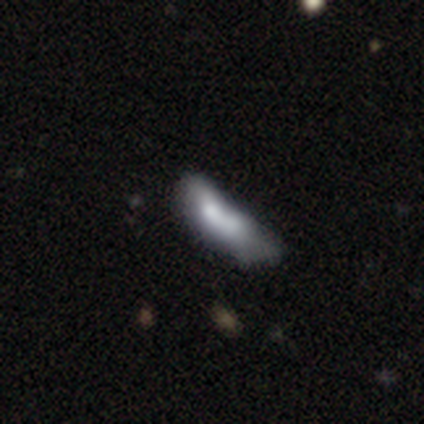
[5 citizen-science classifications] smooth 80%, featured or disk 20%, star or artifact 0%. Down the decision tree: how rounded — in between (50%, tied with cigar-shaped); merging — minor disturbance (40%, tied with merger).